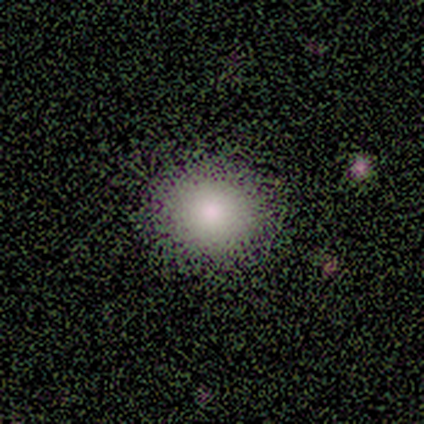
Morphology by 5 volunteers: Overall: smooth (80%). How rounded: round (75%). Merging: none (100%).